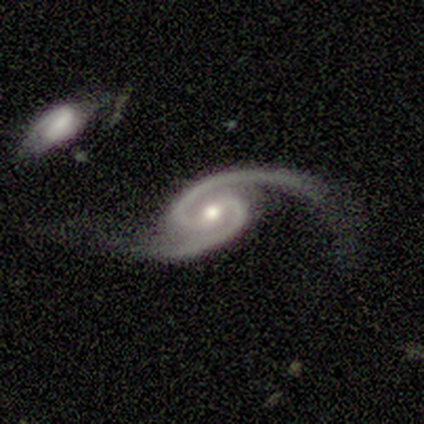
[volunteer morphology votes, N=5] This is clearly a featured or disk galaxy (100%). It is clearly not viewed edge-on (100%). Bar: clearly weak (80%). Spiral arm pattern: clearly yes (100%). Spiral arm count: clearly 2 (100%). Spiral winding: likely loose (60%). Central bulge: likely moderate (60%). Merging: likely minor disturbance (60%).